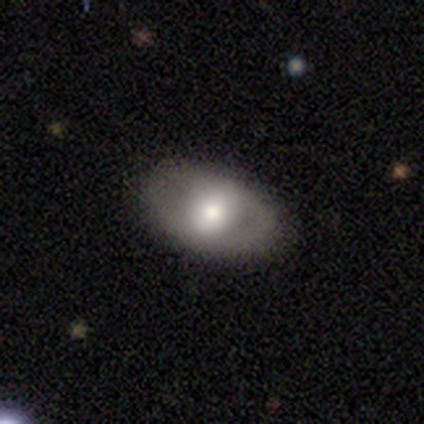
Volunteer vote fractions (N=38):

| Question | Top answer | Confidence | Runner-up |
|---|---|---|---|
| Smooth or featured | featured or disk | 50% | smooth (42%) |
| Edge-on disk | no | 89% | yes (11%) |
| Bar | weak | 35% | tied: no (35%) |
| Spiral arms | no | 76% | yes (24%) |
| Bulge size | moderate | 47% | large (29%) |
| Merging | none | 83% | minor disturbance (14%) |